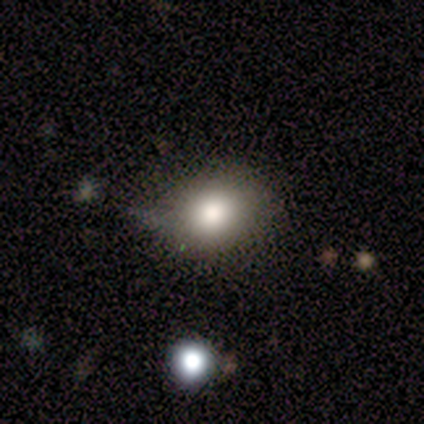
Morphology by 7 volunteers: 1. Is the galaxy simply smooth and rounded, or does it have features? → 86% smooth, 14% star or artifact, 0% featured or disk.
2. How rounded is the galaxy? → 83% round, 17% in between, 0% cigar-shaped.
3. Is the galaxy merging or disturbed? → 50% none (tied), 50% minor disturbance (tied), 0% major disturbance, 0% merger.